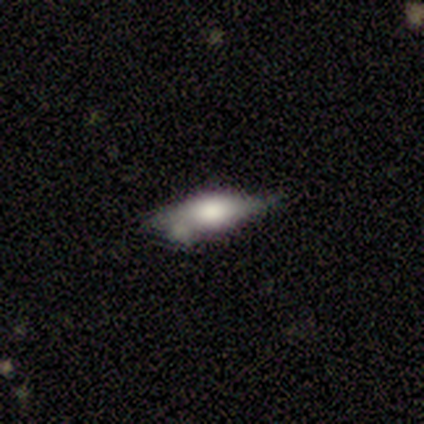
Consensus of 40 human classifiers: Smooth or featured?
  - featured or disk: 48% *
  - smooth: 45%
  - star or artifact: 8%
Edge-on disk?
  - yes: 79% *
  - no: 21%
Edge-on bulge?
  - rounded: 100% *
  - boxy: 0%
  - none: 0%
Merging?
  - minor disturbance: 43% *
  - none: 41%
  - merger: 11%
  - major disturbance: 5%